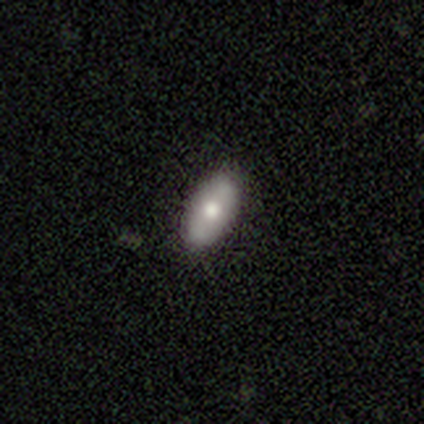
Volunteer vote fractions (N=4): Smooth or featured? 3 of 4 (75%) said smooth. How rounded? 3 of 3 (100%) said in between. Merging? 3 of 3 (100%) said none.